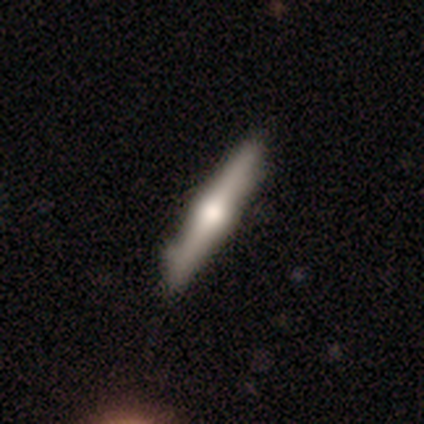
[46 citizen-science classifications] This is likely a featured or disk galaxy (70%). It is clearly viewed edge-on (100%). Edge-on bulge: clearly rounded (97%). Merging: likely none (77%).